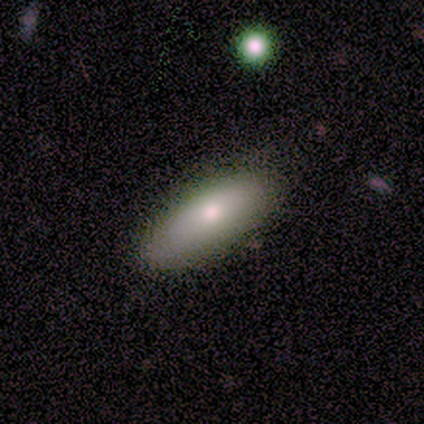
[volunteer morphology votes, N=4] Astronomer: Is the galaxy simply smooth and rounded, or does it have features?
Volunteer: smooth — 75%.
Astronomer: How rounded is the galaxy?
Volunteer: in between — 100%.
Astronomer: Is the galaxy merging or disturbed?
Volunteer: none — 100%.